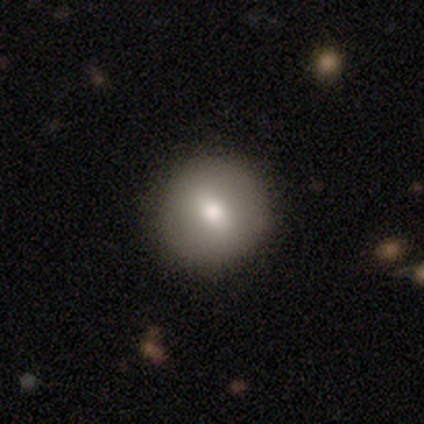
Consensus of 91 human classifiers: Volunteers were most divided on "smooth or featured": smooth: 75%, featured or disk: 19%, star or artifact: 7%. More confident: merging — none (91%); how rounded — round (88%).